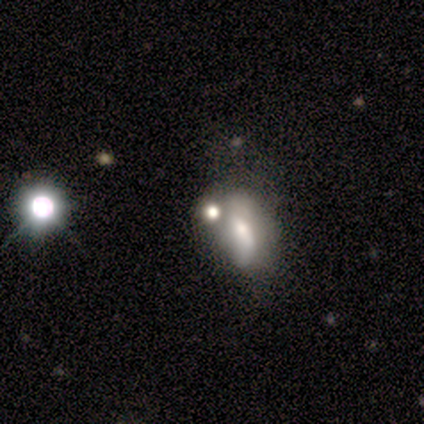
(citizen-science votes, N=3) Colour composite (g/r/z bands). It shows a smooth galaxy with no disk features (67%) that is round (50%, tied with cigar-shaped). Merging: none (67%).